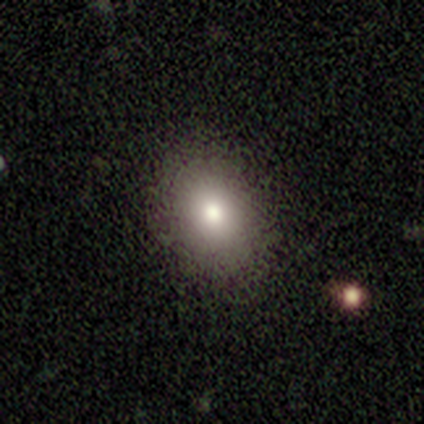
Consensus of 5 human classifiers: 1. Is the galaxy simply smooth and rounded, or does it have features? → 80% smooth, 20% star or artifact, 0% featured or disk.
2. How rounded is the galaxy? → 100% in between, 0% round, 0% cigar-shaped.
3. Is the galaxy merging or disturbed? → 100% none, 0% minor disturbance, 0% major disturbance, 0% merger.